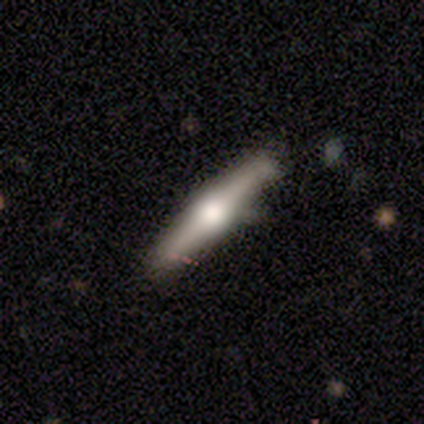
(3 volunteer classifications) smooth_or_featured: featured or disk (p=0.67) [alt: smooth p=0.33]
disk_edge_on: yes (p=1.00)
edge_on_bulge: rounded (p=1.00)
merging: minor disturbance (p=0.67) [alt: none p=0.33]